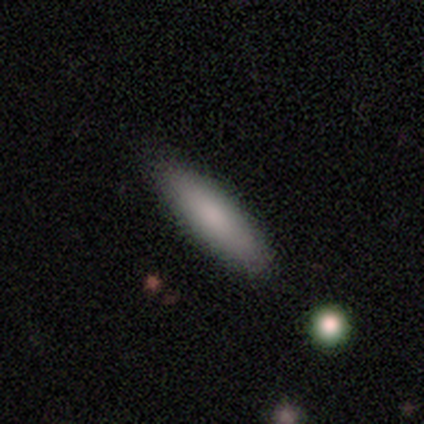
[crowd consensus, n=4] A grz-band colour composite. It shows a smooth galaxy with no disk features (100%) that is cigar-shaped (100%). Merging: none (100%).